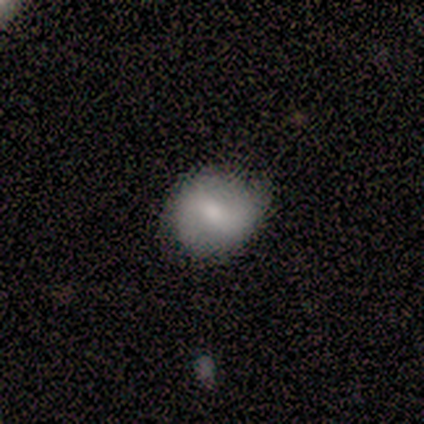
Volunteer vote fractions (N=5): smooth 60%, featured or disk 40%, star or artifact 0%. Down the decision tree: how rounded — round (67%); merging — none (60%).